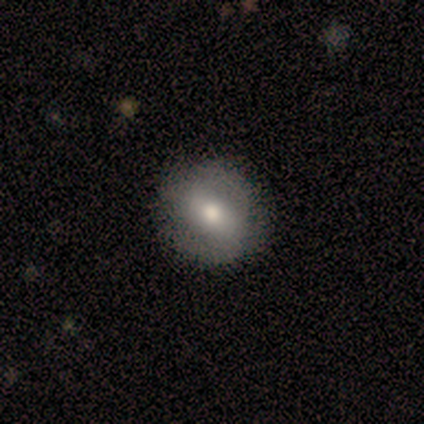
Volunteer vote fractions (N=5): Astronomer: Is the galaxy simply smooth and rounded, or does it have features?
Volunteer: featured or disk — 60% (runner-up: smooth, 40%).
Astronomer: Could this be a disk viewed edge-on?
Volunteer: no — 100%.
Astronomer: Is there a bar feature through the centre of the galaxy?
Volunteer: weak — 100%.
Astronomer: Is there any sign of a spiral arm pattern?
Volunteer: yes — 67%.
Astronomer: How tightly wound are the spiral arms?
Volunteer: medium — 100%.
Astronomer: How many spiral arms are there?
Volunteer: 2 — 100%.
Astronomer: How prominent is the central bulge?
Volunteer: moderate — 67%.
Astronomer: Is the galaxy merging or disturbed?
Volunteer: none — 100%.